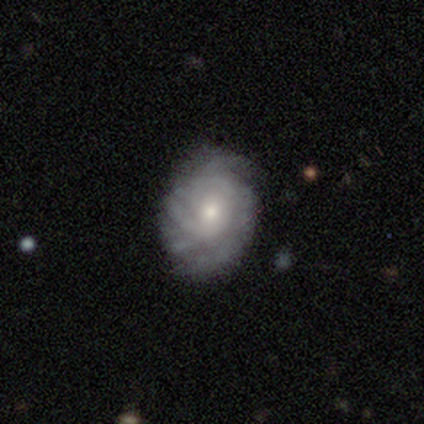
Smooth or featured?
  - featured or disk: 83% *
  - smooth: 17%
  - star or artifact: 0%
Edge-on disk?
  - no: 100% *
  - yes: 0%
Bar?
  - no: 100% *
  - strong: 0%
  - weak: 0%
Spiral arms?
  - yes: 100% *
  - no: 0%
Spiral winding?
  - tight: 80% *
  - medium: 20%
  - loose: 0%
Spiral arm count?
  - more than 4: 40% * (tied)
  - can't tell: 40% * (tied)
  - 3: 20%
  - 1: 0%
  - 2: 0%
  - 4: 0%
Bulge size?
  - moderate: 80% *
  - small: 20%
  - dominant: 0%
  - large: 0%
  - none: 0%
Merging?
  - none: 67% *
  - minor disturbance: 33%
  - major disturbance: 0%
  - merger: 0%